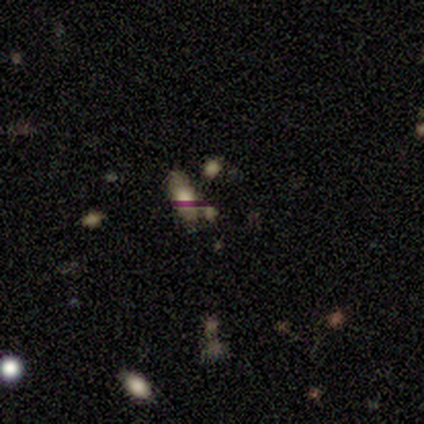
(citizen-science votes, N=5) Smooth or featured? 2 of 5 (40%, tied with star or artifact) said featured or disk. Edge-on disk? 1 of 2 (50%, tied with no) said yes. Edge-on bulge? 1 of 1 (100%) said rounded. Merging? 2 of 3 (67%) said none.